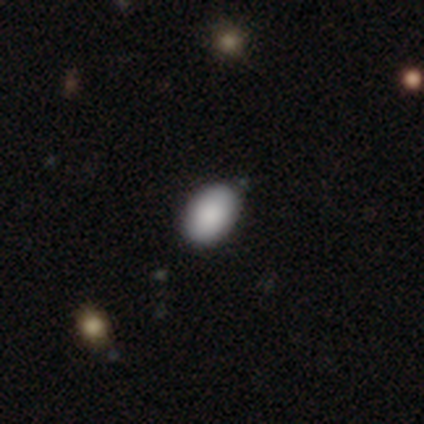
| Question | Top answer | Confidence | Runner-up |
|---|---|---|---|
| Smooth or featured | smooth | 100% | — |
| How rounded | in between | 80% | round (20%) |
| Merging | none | 100% | — |